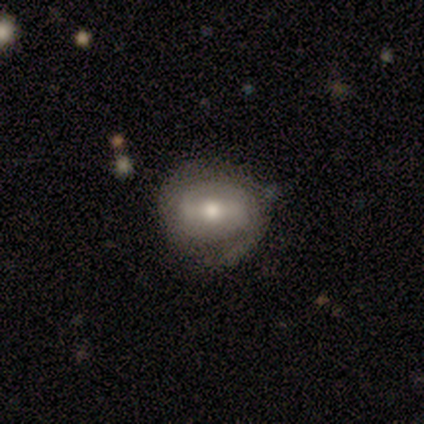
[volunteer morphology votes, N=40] This appears to be a featured or disk galaxy (85%) with a weak bar (44%), 2 (71%) tight (75%) spiral arms (71%) and a moderate central bulge (76%). Merging: none (65%).